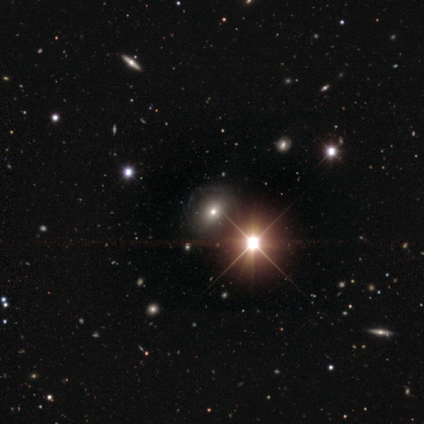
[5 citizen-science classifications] A smooth galaxy with no disk features (60%) that is in between round and cigar-shaped (100%).

Vote fractions:
- Smooth or featured? smooth: 60% / featured or disk: 20% / star or artifact: 20%
- How rounded? in between: 100% / round: 0% / cigar-shaped: 0%
- Merging? none: 50% (tied) / minor disturbance: 50% (tied) / major disturbance: 0% / merger: 0%